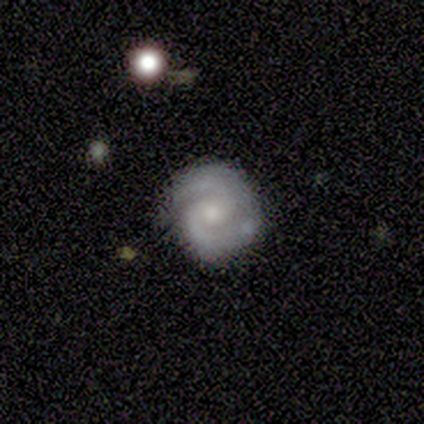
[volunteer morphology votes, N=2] type=featured or disk (100%); edge-on=no (100%); bar=weak (50%, tied with no); spiral arms=yes (100%); winding=medium (100%); arm count=2 (100%); bulge=small (100%); merging=none (100%).